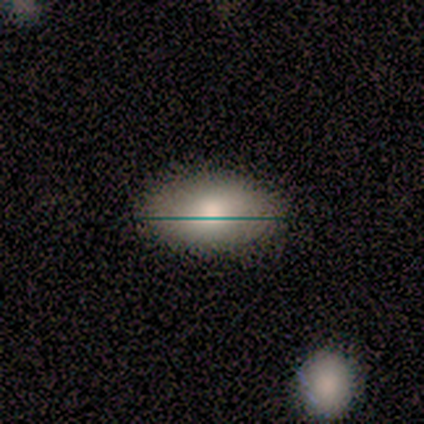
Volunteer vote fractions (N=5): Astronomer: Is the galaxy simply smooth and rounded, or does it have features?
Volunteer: smooth — 60% (runner-up: featured or disk, 40%).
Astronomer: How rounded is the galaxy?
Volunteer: in between — 100%.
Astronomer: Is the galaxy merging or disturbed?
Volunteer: none — 60% (runner-up: major disturbance, 40%).